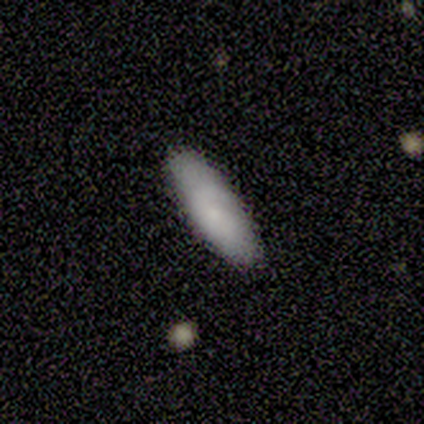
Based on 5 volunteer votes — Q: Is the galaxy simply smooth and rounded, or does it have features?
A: smooth — 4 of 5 (80%).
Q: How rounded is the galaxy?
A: in between — 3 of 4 (75%).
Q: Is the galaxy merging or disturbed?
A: none — 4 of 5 (80%).